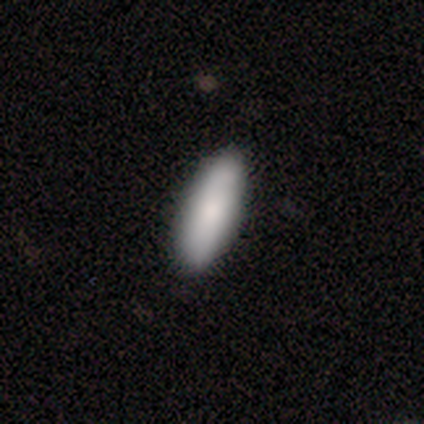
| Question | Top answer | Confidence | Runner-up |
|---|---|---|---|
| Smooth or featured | smooth | 80% | featured or disk (20%) |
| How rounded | in between | 88% | cigar-shaped (12%) |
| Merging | none | 100% | — |